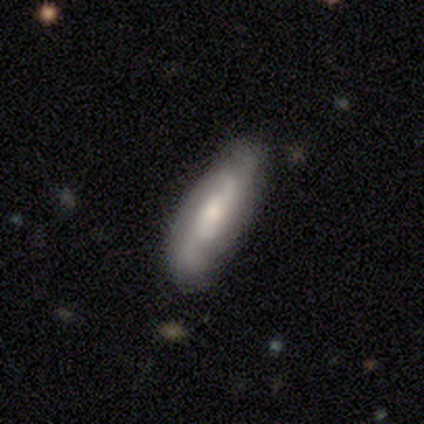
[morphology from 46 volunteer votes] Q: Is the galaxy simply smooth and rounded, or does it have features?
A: featured or disk — 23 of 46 (50%).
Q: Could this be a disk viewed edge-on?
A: no — 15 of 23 (65%).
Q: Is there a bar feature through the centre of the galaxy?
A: no — 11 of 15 (73%).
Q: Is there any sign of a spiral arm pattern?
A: yes — 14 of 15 (93%).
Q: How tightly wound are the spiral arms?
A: medium — 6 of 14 (43%, tied with loose).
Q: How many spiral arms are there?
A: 2 — 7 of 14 (50%, tied with can't tell).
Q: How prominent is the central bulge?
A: moderate — 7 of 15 (47%).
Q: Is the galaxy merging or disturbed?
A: none — 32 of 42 (76%).